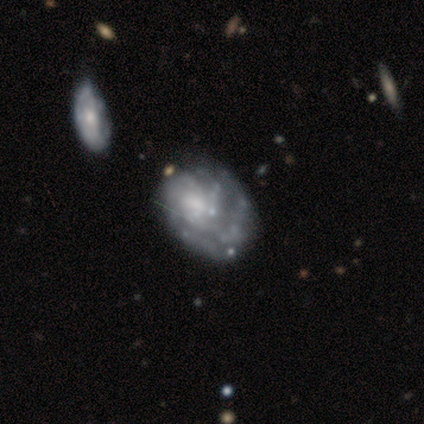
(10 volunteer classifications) Morphology: type=featured or disk (80%); edge-on=no (88%); bar=no (100%); spiral arms=yes (71%); winding=tight (80%); arm count=can't tell (80%); bulge=none (71%); merging=none (33%, tied with major disturbance).